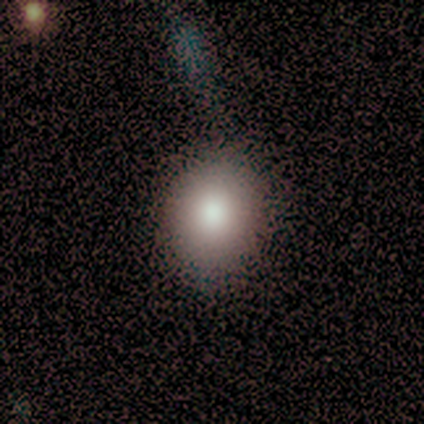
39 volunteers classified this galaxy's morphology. Smooth or featured? 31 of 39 (79%) said smooth. How rounded? 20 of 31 (65%) said round. Merging? 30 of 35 (86%) said none.